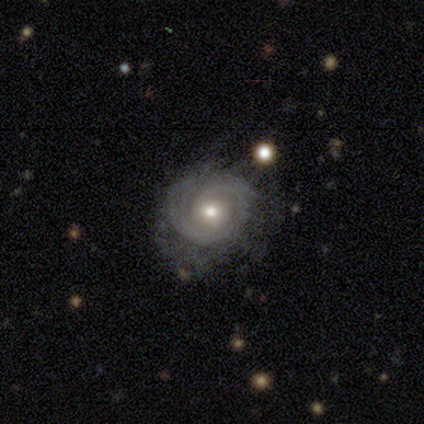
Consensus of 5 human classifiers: This is clearly a featured or disk galaxy (100%). It is clearly not viewed edge-on (100%). Bar: clearly no (100%). Spiral arm pattern: likely yes (60%). Spiral arm count: marginally 1 (33%, tied with 4 and can't tell). Spiral winding: clearly tight (100%). Central bulge: clearly moderate (80%). Merging: clearly none (80%).